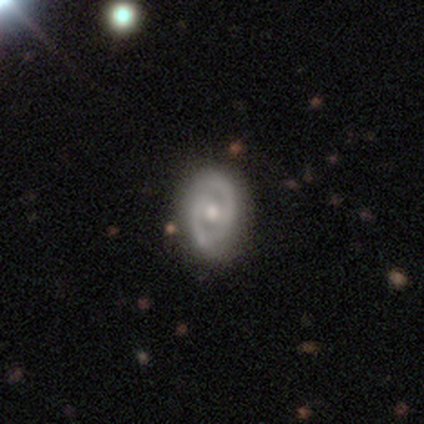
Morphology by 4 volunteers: smooth_or_featured: featured or disk (p=0.75) [alt: star or artifact p=0.25]
disk_edge_on: no (p=1.00)
bar: no (p=0.67) [alt: weak p=0.33]
has_spiral_arms: yes (p=0.67) [alt: no p=0.33]
spiral_winding: tight (p=0.50) [tied with: medium p=0.50]
spiral_arm_count: 2 (p=1.00)
bulge_size: moderate (p=0.67) [alt: small p=0.33]
merging: none (p=0.67) [alt: minor disturbance p=0.33]